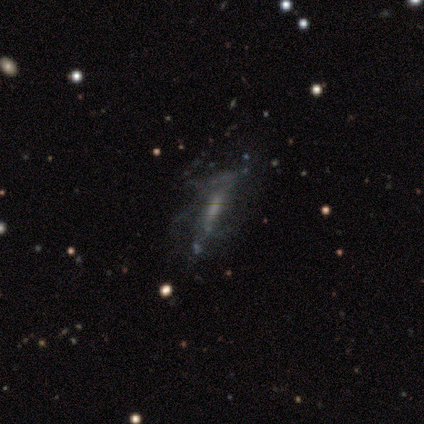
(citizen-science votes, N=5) Morphology: type=featured or disk (80%); edge-on=no (100%); bar=no (50%); spiral arms=yes (75%); winding=medium (67%); arm count=can't tell (67%); bulge=small (75%); merging=major disturbance (60%).